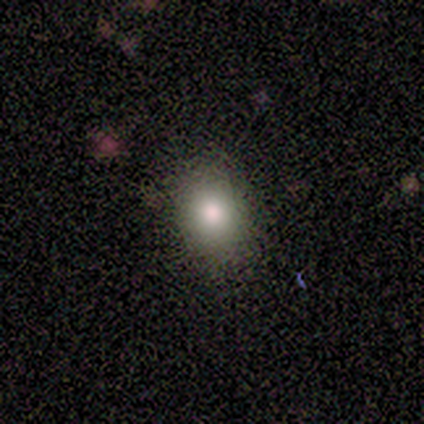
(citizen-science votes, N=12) This is likely a smooth galaxy (67%). How rounded: likely round (62%). Merging: clearly none (100%).